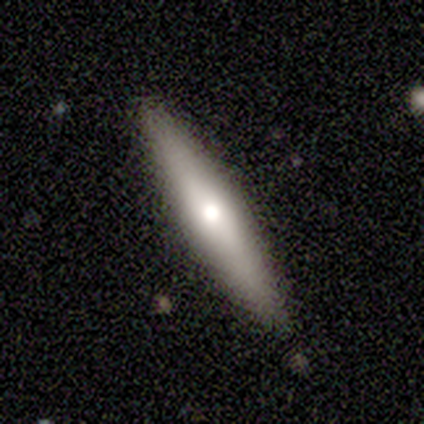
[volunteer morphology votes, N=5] This appears to be a smooth galaxy with no disk features (60%) that is cigar-shaped (100%). Merging: none (80%).